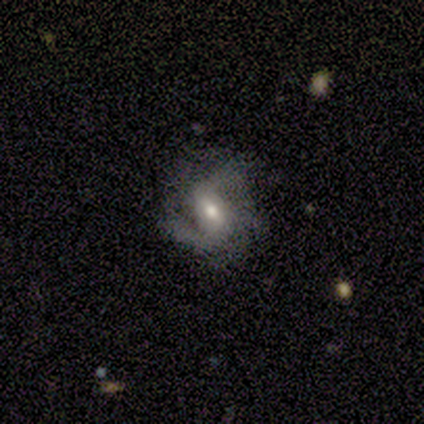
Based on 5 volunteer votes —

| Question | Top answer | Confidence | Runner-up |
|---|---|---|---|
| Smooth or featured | featured or disk | 60% | smooth (20%) |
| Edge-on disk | no | 100% | — |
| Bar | strong | 33% | tied: weak (33%), no (33%) |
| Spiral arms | yes | 100% | — |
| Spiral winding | medium | 67% | loose (33%) |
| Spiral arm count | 2 | 33% | tied: 3 (33%), can't tell (33%) |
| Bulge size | moderate | 100% | — |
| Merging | none | 50% | minor disturbance (25%) |